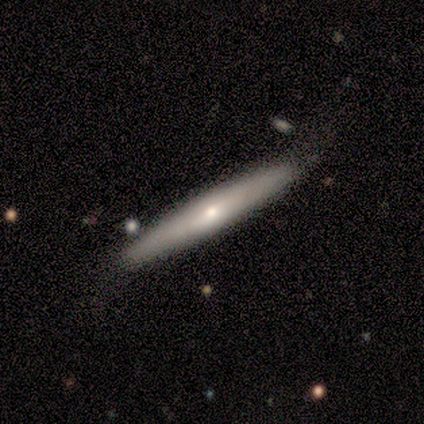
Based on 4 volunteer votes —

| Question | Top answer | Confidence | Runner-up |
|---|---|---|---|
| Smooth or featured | featured or disk | 75% | smooth (25%) |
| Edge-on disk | yes | 67% | no (33%) |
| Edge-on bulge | none | 50% | tied: rounded (50%) |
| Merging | none | 100% | — |